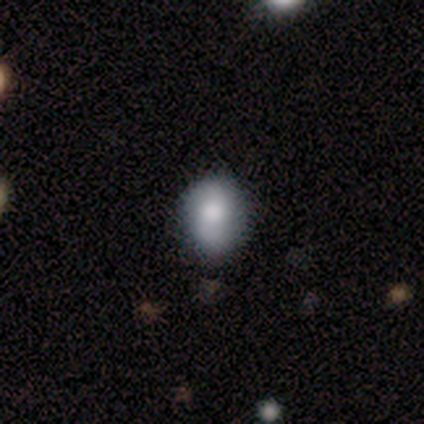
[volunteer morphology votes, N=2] A smooth galaxy with no disk features (100%) that is in between round and cigar-shaped (100%). Merging: none (50%, tied with major disturbance).